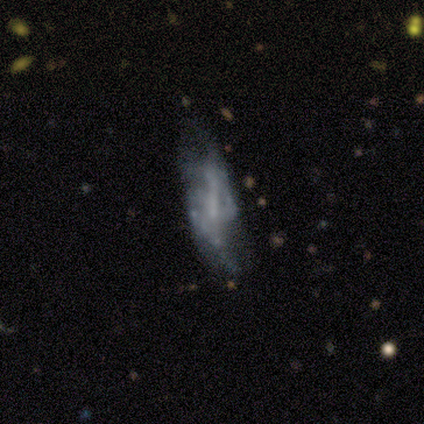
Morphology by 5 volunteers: type=featured or disk (60%); edge-on=no (100%); bar=weak (67%); spiral arms=yes (67%); winding=tight (50%, tied with loose); arm count=can't tell (100%); bulge=none (67%); merging=major disturbance (75%).